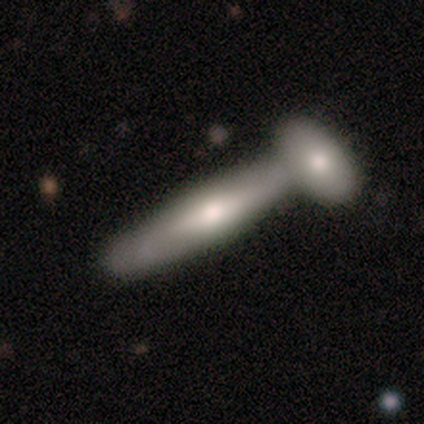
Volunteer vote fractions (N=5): Morphology: type=featured or disk (60%); edge-on=yes (100%); edge-on bulge=rounded (100%); merging=merger (60%).